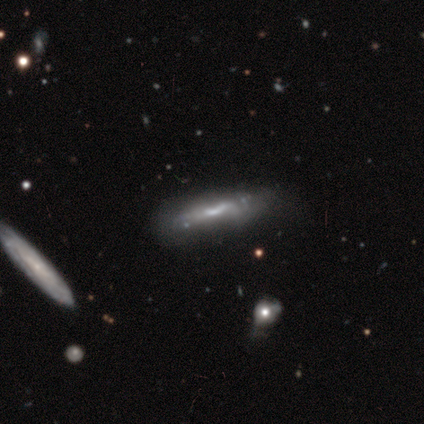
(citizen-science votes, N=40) Smooth or featured? 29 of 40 (72%) said featured or disk. Edge-on disk? 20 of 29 (69%) said yes. Edge-on bulge? 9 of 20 (45%) said boxy. Merging? 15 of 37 (41%) said none.